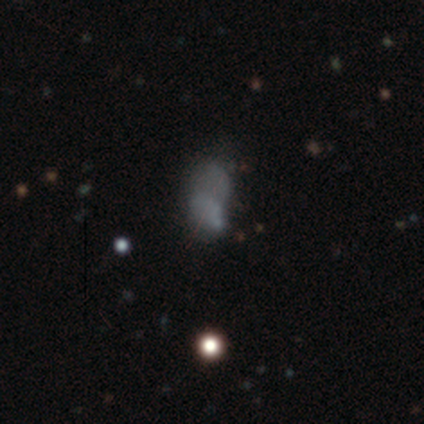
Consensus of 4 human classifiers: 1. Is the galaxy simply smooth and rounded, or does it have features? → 50% smooth (tied), 50% featured or disk (tied), 0% star or artifact.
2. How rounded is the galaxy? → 100% in between, 0% round, 0% cigar-shaped.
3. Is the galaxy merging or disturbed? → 50% merger, 25% minor disturbance, 25% major disturbance, 0% none.